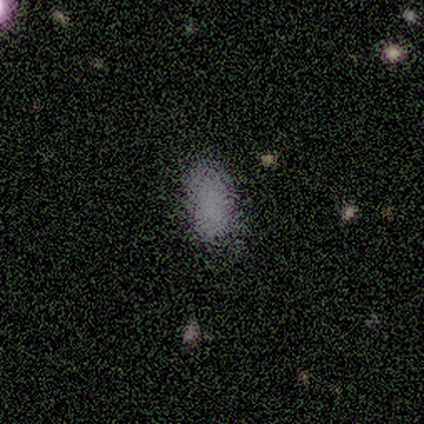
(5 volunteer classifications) Morphology: type=smooth (60%); roundness=in between (100%); merging=none (67%).